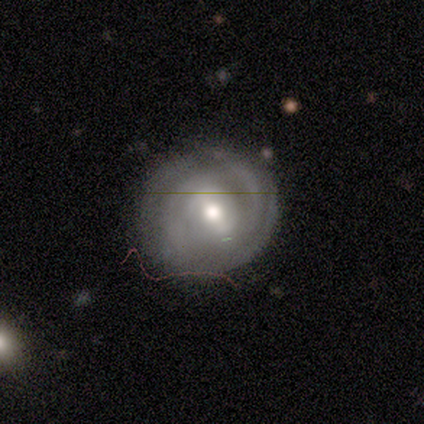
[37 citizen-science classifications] A featured or disk galaxy (65%) with a weak bar (46%), tight (78%) spiral arms (75%) and a moderate central bulge (75%). Merging: none (83%).